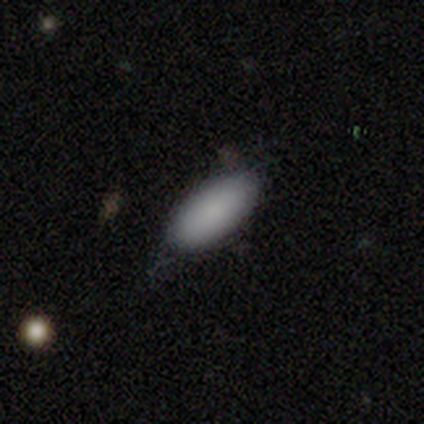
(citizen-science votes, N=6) Volunteers were most divided on "merging": minor disturbance: 50%, none: 33%, major disturbance: 17%, merger: 0%. More confident: smooth or featured — smooth (100%); how rounded — in between (100%).